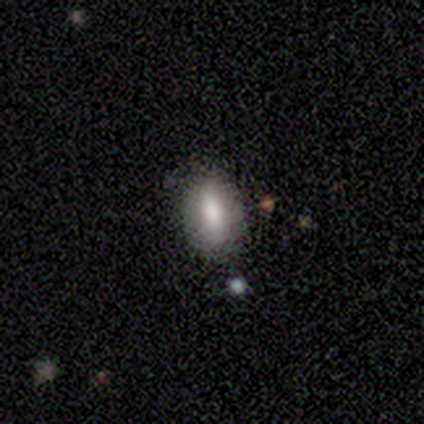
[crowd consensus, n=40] Smooth or featured? 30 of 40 (75%) said smooth. How rounded? 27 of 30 (90%) said in between. Merging? 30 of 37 (81%) said none.